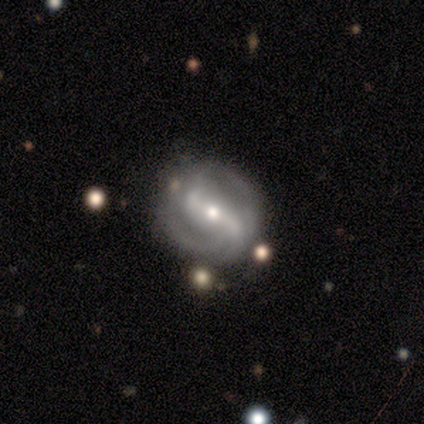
This is clearly a featured or disk galaxy (100%). It is clearly not viewed edge-on (100%). Bar: clearly strong (80%). Spiral arm pattern: clearly yes (100%). Spiral arm count: clearly 2 (80%). Spiral winding: likely medium (60%). Central bulge: clearly small (80%). Merging: clearly none (100%).